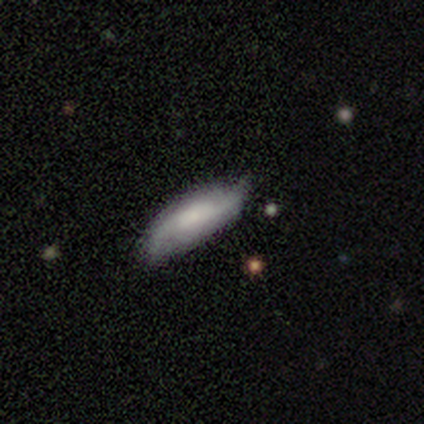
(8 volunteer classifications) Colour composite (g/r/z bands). It shows a featured or disk galaxy (62%) with a weak bar (40%, tied with no), 2 (100%) medium (40%, tied with loose) spiral arms (100%) and a small central bulge (40%, tied with none). Merging: none (100%).